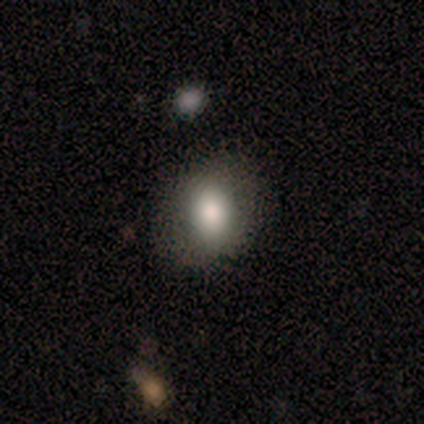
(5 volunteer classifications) A smooth galaxy with no disk features (80%) that is round (50%, tied with in between). Merging: none (100%).